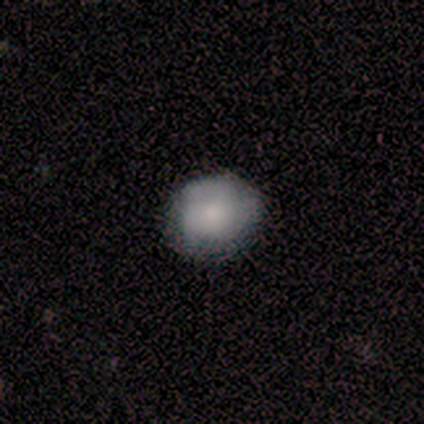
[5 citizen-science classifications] Smooth or featured: smooth — 80% (star or artifact — 20%)
How rounded: round — 100%
Merging: none — 100%